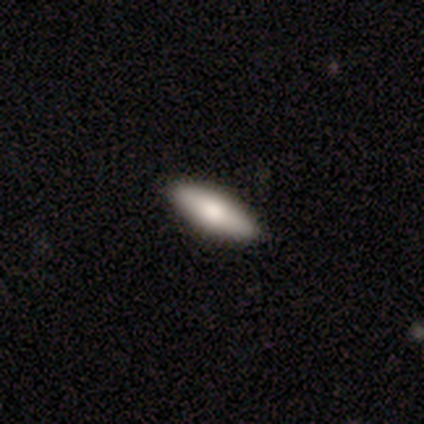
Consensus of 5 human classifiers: smooth 100%, featured or disk 0%, star or artifact 0%. Down the decision tree: how rounded — cigar-shaped (60%); merging — none (60%).